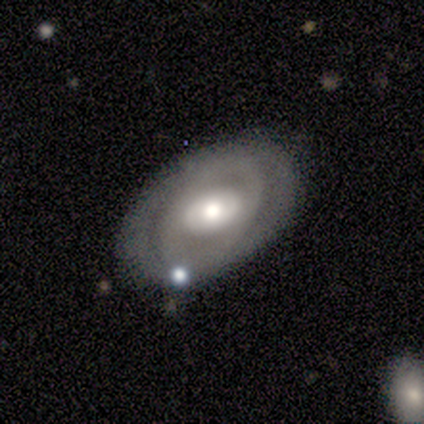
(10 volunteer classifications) This is likely a featured or disk galaxy (60%). It is clearly not viewed edge-on (83%). Bar: likely no (60%). Spiral arm pattern: clearly no (80%). Central bulge: likely moderate (60%). Merging: clearly none (90%).